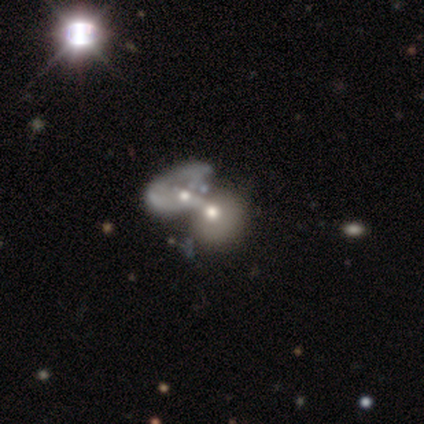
Morphology: type=smooth (62%); roundness=in between (70%); merging=merger (100%).